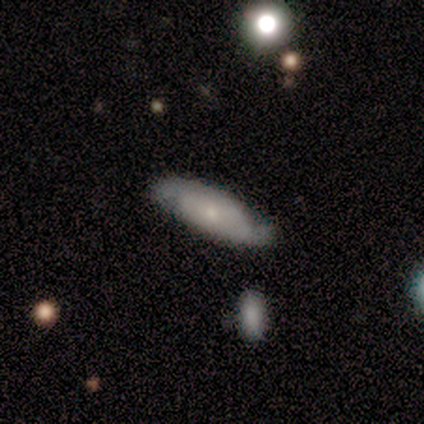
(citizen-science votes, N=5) smooth 60%, featured or disk 40%, star or artifact 0%. Down the decision tree: how rounded — in between (67%); merging — none (80%).